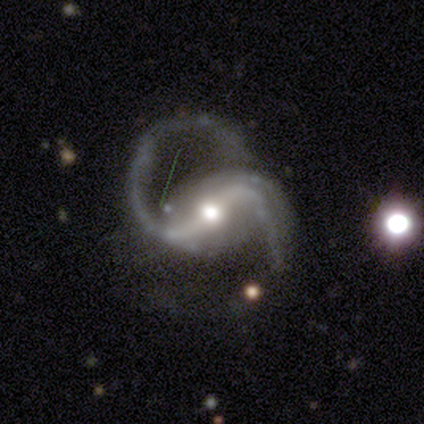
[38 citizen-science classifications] Morphology: type=featured or disk (97%); edge-on=no (97%); bar=strong (67%); spiral arms=yes (100%); winding=medium (56%); arm count=2 (94%); bulge=moderate (89%); merging=none (51%).